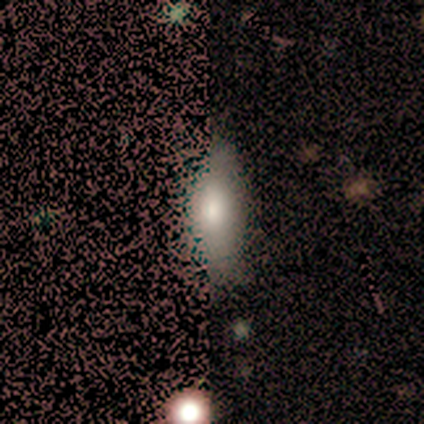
Volunteers were most divided on "how rounded" (2-way tie): in between: 50%, cigar-shaped: 50%, round: 0%; "merging" (2-way tie): none: 44%, minor disturbance: 44%, merger: 11%, major disturbance: 0%. More confident: smooth or featured — smooth (80%).